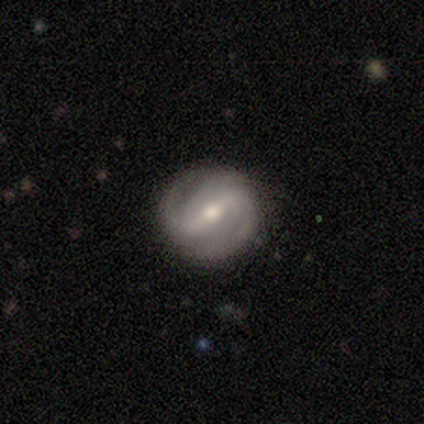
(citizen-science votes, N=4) featured or disk 75%, star or artifact 25%, smooth 0%. Down the decision tree: edge-on disk — no (100%); bar — strong (67%); spiral arms — yes (100%); spiral arm count — 2 (100%); spiral winding — tight (67%); bulge size — moderate (67%); merging — none (100%).